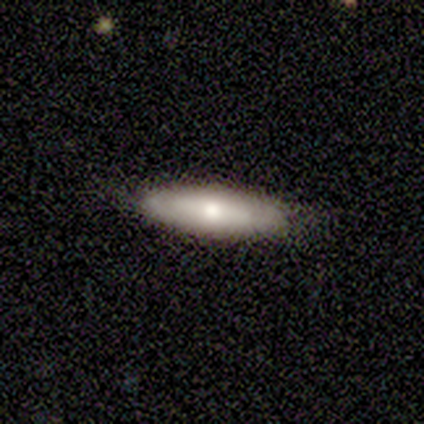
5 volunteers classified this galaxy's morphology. Smooth or featured: smooth — 60% (featured or disk — 40%)
How rounded: cigar-shaped — 67% (in between — 33%)
Merging: none — 100%